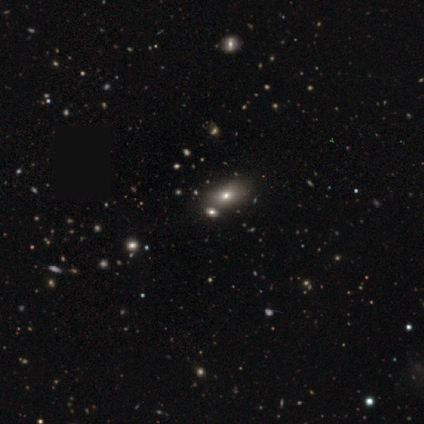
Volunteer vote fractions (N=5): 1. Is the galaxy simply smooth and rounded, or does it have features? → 80% smooth, 20% star or artifact, 0% featured or disk.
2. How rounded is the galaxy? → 75% in between, 25% round, 0% cigar-shaped.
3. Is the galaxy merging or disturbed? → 75% none, 25% merger, 0% minor disturbance, 0% major disturbance.